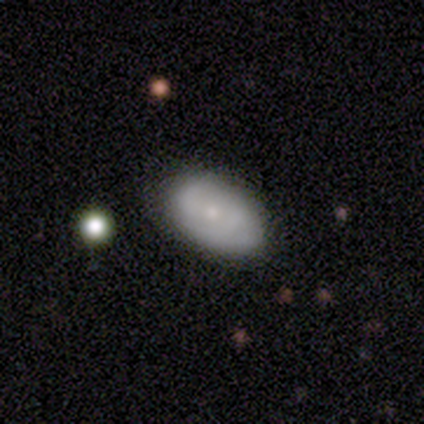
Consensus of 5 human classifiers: Q: Smooth or featured?
A: smooth (100%)
Q: How rounded?
A: in between (100%)
Q: Merging?
A: none (60%); runner-up: minor disturbance (40%)